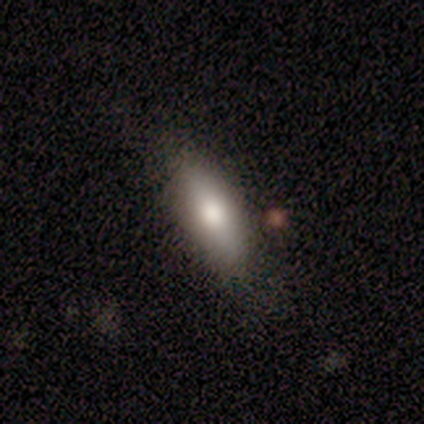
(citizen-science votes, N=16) A smooth galaxy with no disk features (94%) that is in between round and cigar-shaped (53%). Merging: none (75%).